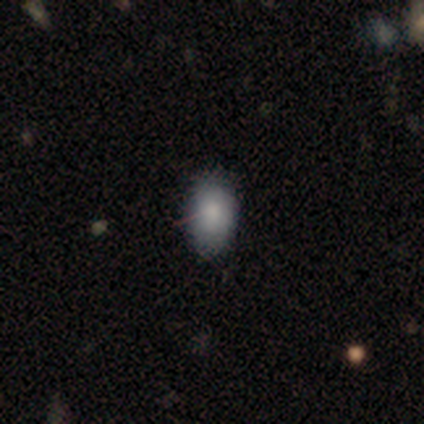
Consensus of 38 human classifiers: A smooth galaxy with no disk features (82%) that is in between round and cigar-shaped (87%).

Vote fractions:
- Smooth or featured? smooth: 82% / star or artifact: 11% / featured or disk: 8%
- How rounded? in between: 87% / round: 10% / cigar-shaped: 3%
- Merging? none: 76% / minor disturbance: 18% / major disturbance: 6% / merger: 0%